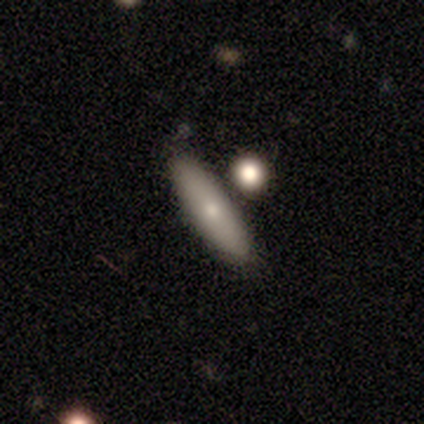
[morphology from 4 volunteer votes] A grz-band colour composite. It shows a smooth galaxy with no disk features (75%) that is in between round and cigar-shaped (100%). Merging: none (75%).